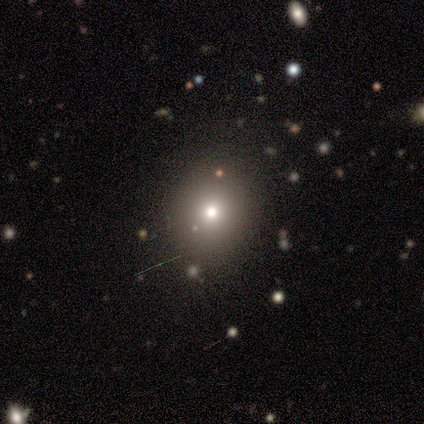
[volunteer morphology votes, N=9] A smooth galaxy with no disk features (67%) that is round (67%).

Vote fractions:
- Smooth or featured? smooth: 67% / featured or disk: 22% / star or artifact: 11%
- How rounded? round: 67% / in between: 33% / cigar-shaped: 0%
- Merging? none: 100% / minor disturbance: 0% / major disturbance: 0% / merger: 0%